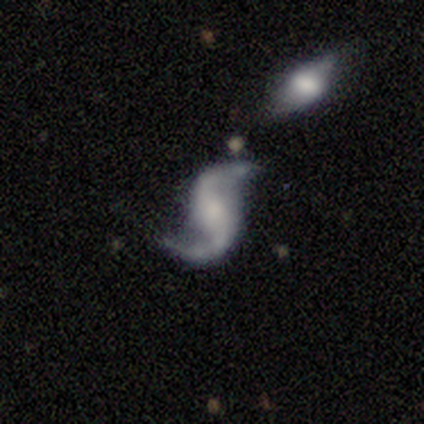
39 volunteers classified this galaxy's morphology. This appears to be a featured or disk galaxy (97%) with no bar (49%), 2 (94%) loose (78%) spiral arms (97%) and no central bulge (41%). Merging: none (76%).